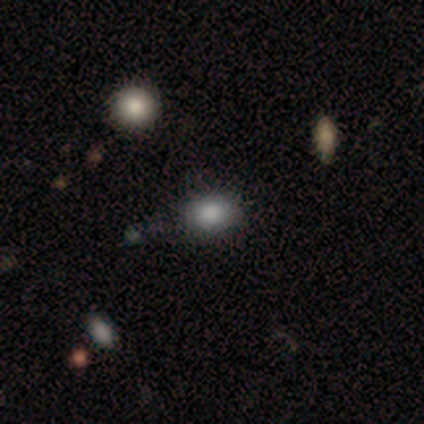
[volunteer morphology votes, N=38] Smooth or featured?
  - smooth: 89% *
  - featured or disk: 5%
  - star or artifact: 5%
How rounded?
  - in between: 62% *
  - round: 38%
  - cigar-shaped: 0%
Merging?
  - none: 92% *
  - major disturbance: 6%
  - minor disturbance: 3%
  - merger: 0%